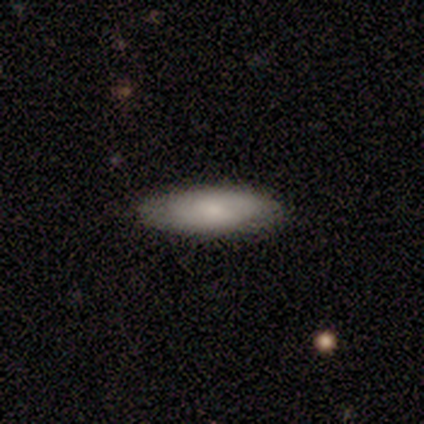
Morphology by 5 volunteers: type=smooth (80%); roundness=in between (100%); merging=none (100%).